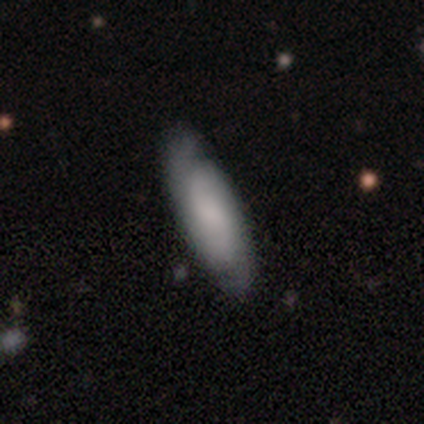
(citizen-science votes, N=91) Smooth or featured? smooth (48%, tied with featured or disk)
How rounded? in between (52%)
Merging? none (74%)